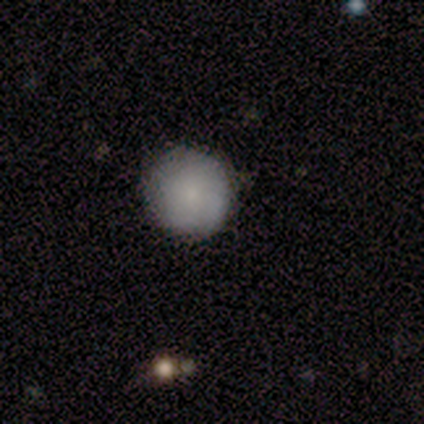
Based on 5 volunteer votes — This appears to be a smooth galaxy with no disk features (80%) that is round (100%). Merging: none (75%).